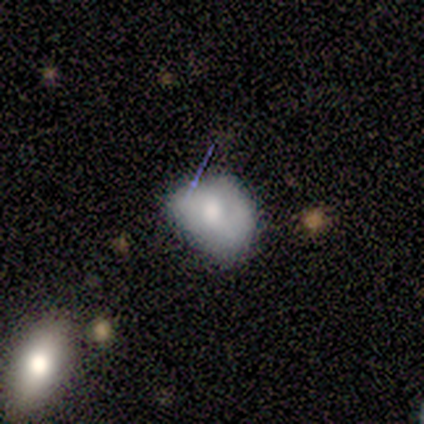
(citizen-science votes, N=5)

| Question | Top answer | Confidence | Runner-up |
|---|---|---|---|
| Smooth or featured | smooth | 80% | featured or disk (20%) |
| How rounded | in between | 75% | round (25%) |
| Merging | none | 60% | minor disturbance (40%) |